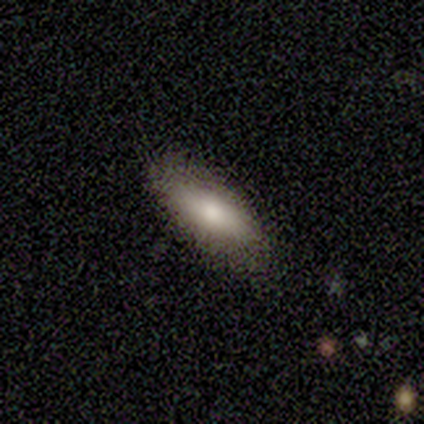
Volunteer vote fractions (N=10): A smooth galaxy with no disk features (70%) that is in between round and cigar-shaped (100%). Merging: none (80%).